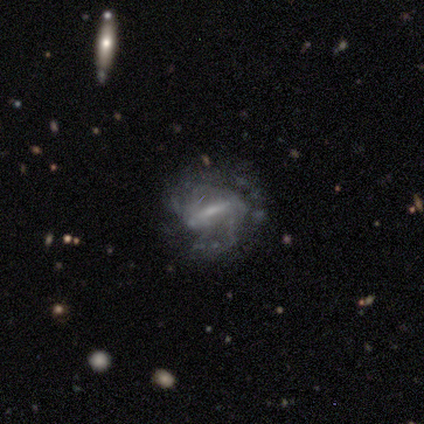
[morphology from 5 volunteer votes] Q: Smooth or featured?
A: featured or disk (100%)
Q: Edge-on disk?
A: no (100%)
Q: Bar?
A: strong (80%); runner-up: no (20%)
Q: Spiral arms?
A: yes (80%); runner-up: no (20%)
Q: Spiral winding?
A: tight (75%); runner-up: loose (25%)
Q: Spiral arm count?
A: 3 (50%); runner-up: 2 (25%)
Q: Bulge size?
A: moderate (40%); tied with: small (40%)
Q: Merging?
A: none (40%); tied with: minor disturbance (40%)